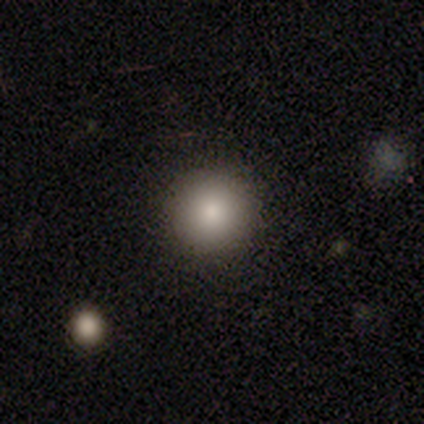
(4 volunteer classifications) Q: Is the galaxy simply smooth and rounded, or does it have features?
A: smooth — 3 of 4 (75%).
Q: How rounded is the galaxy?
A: round — 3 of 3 (100%).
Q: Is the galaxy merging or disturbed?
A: none — 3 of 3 (100%).